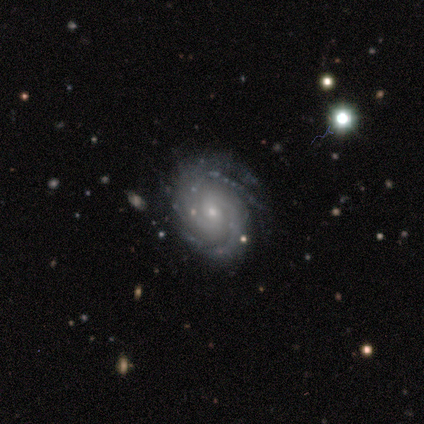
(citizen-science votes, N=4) Smooth or featured? 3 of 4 (75%) said featured or disk. Edge-on disk? 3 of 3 (100%) said no. Bar? 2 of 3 (67%) said weak. Spiral arms? 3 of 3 (100%) said yes. Spiral winding? 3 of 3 (100%) said tight. Spiral arm count? 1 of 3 (33%, tied with 4 and can't tell) said 2. Bulge size? 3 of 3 (100%) said small. Merging? 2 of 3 (67%) said minor disturbance.